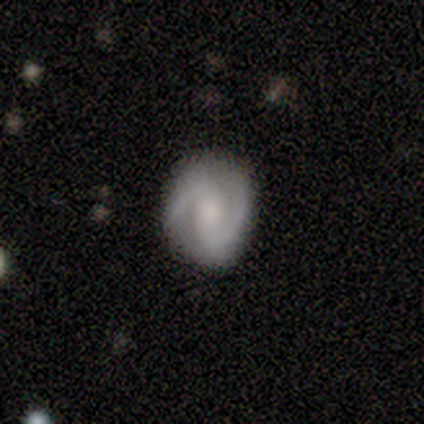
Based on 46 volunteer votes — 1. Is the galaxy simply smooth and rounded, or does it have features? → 74% featured or disk, 20% smooth, 7% star or artifact.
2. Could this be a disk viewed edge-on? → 97% no, 3% yes.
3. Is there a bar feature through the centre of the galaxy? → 48% weak, 33% no, 18% strong.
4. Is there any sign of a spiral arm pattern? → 97% yes, 3% no.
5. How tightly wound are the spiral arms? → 53% medium, 28% tight, 19% loose.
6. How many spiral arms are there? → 97% 2, 3% can't tell, 0% 1, 0% 3, 0% 4, 0% more than 4.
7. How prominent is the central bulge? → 39% moderate, 27% small, 21% large, 12% none, 0% dominant.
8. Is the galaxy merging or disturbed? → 58% none, 33% minor disturbance, 7% major disturbance, 2% merger.